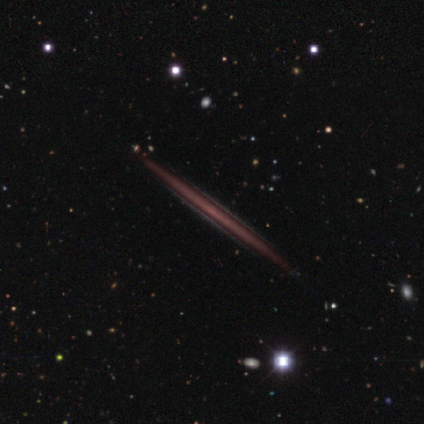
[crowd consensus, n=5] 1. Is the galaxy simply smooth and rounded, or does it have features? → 60% featured or disk, 20% smooth, 20% star or artifact.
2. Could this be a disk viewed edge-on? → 100% yes, 0% no.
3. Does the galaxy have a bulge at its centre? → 100% none, 0% boxy, 0% rounded.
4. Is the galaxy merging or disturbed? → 75% none, 25% minor disturbance, 0% major disturbance, 0% merger.